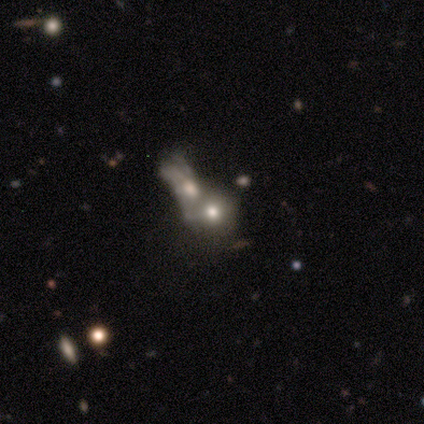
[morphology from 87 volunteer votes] Smooth or featured: smooth — 44% (featured or disk — 38%)
How rounded: round — 63% (in between — 32%)
Merging: merger — 80% (none — 13%)